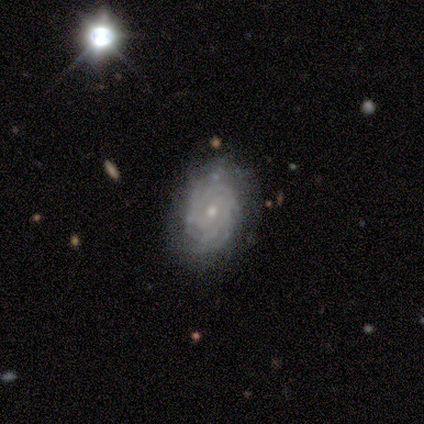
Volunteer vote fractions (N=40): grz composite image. It shows a featured or disk galaxy (85%) with no bar (79%), tight (84%) spiral arms (91%) and a small central bulge (62%). Merging: none (82%).